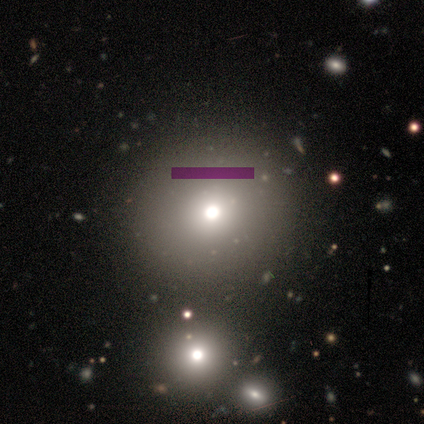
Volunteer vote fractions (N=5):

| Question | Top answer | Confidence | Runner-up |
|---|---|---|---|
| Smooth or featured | smooth | 40% | tied: featured or disk (40%) |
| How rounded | round | 50% | tied: in between (50%) |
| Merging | none | 50% | major disturbance (25%) |